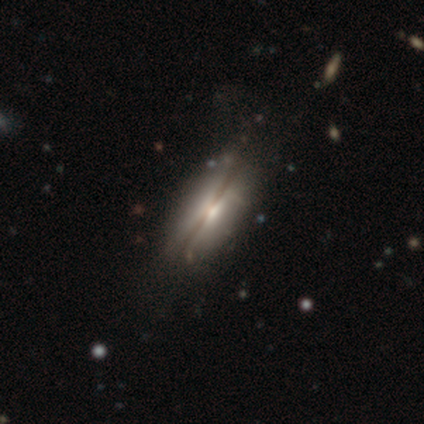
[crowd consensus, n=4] Morphology: type=featured or disk (75%); edge-on=yes (67%); edge-on bulge=rounded (100%); merging=none (75%).